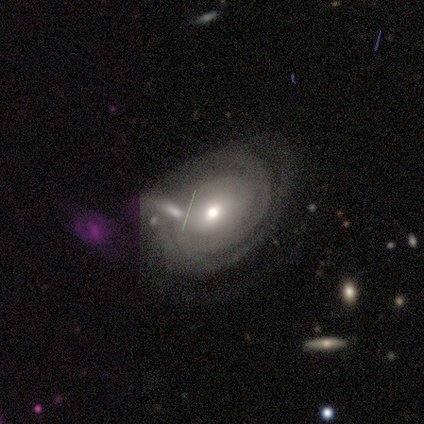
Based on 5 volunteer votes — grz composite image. It shows a featured or disk galaxy (100%) with no bar (80%), tight (75%) spiral arms (80%) and a moderate central bulge (80%). Merging: none (60%).